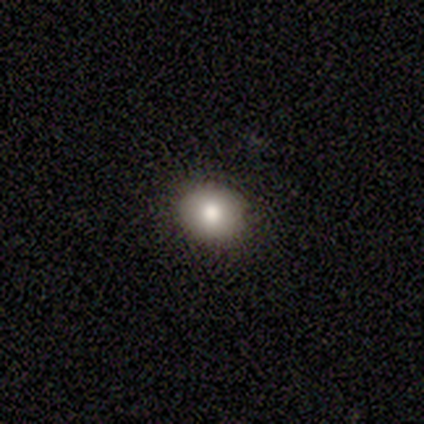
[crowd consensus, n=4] Morphology: type=smooth (75%); roundness=round (100%); merging=none (100%).